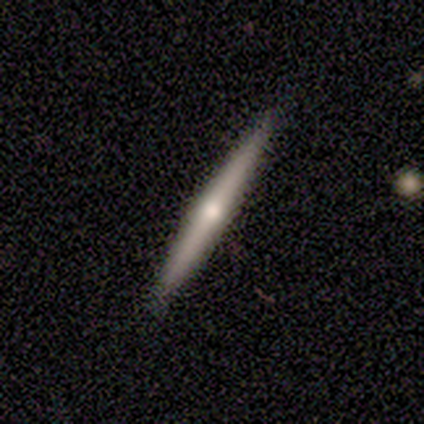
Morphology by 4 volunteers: Overall: smooth (50%, tied with featured or disk). How rounded: cigar-shaped (100%). Merging: none (75%).